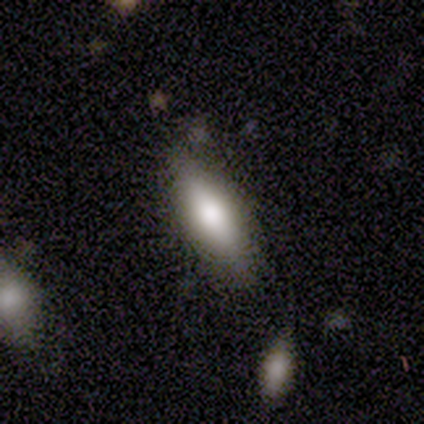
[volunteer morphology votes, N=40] smooth_or_featured: smooth (p=0.80) [alt: featured or disk p=0.15]
how_rounded: cigar-shaped (p=0.50) [alt: in between p=0.47]
merging: none (p=0.76) [alt: minor disturbance p=0.11]